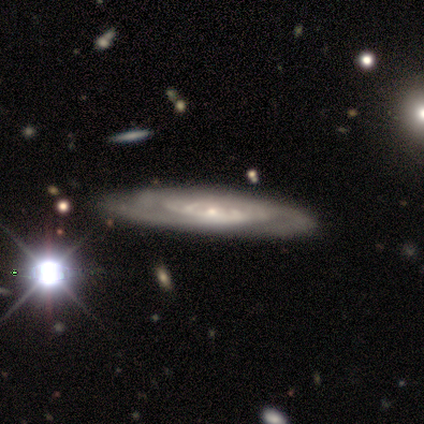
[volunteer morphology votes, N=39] Smooth or featured? 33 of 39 (85%) said featured or disk. Edge-on disk? 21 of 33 (64%) said no. Bar? 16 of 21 (76%) said no. Spiral arms? 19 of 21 (90%) said yes. Spiral winding? 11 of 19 (58%) said tight. Spiral arm count? 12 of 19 (63%) said can't tell. Bulge size? 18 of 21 (86%) said small. Merging? 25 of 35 (71%) said none.